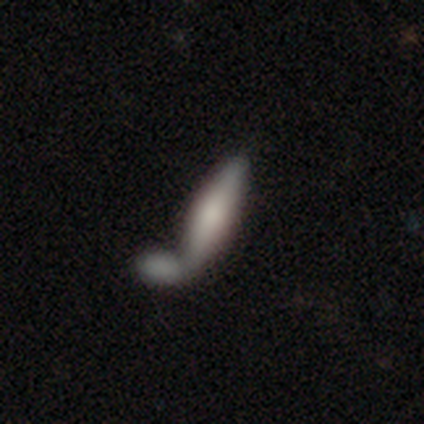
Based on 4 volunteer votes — Q: Smooth or featured?
A: smooth (75%); runner-up: featured or disk (25%)
Q: How rounded?
A: cigar-shaped (67%); runner-up: in between (33%)
Q: Merging?
A: merger (100%)